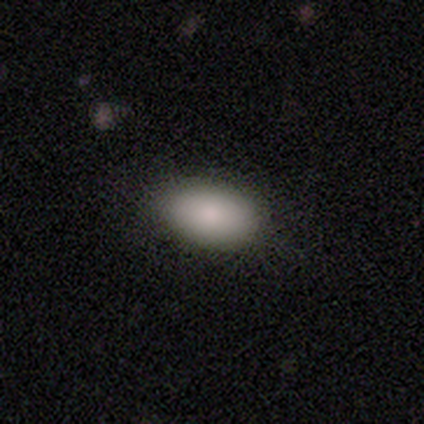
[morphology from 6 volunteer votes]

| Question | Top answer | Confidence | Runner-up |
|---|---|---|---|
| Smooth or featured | smooth | 83% | featured or disk (17%) |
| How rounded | in between | 80% | round (20%) |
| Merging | none | 67% | minor disturbance (33%) |